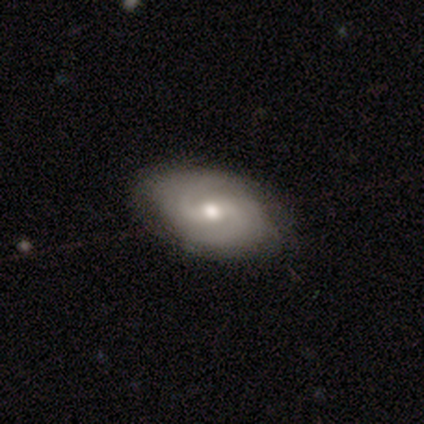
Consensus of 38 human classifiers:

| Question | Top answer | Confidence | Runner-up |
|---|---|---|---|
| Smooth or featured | featured or disk | 66% | smooth (29%) |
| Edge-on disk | no | 92% | yes (8%) |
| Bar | weak | 57% | no (26%) |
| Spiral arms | yes | 100% | — |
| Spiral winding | tight | 48% | medium (39%) |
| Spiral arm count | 2 | 57% | can't tell (30%) |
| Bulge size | moderate | 91% | large (4%) |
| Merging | none | 78% | minor disturbance (19%) |